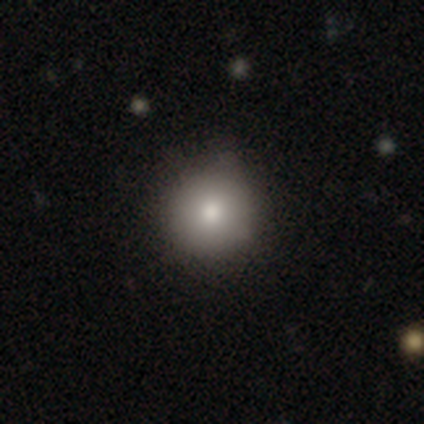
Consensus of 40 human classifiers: This is clearly a smooth galaxy (95%). How rounded: clearly round (97%). Merging: likely none (65%).